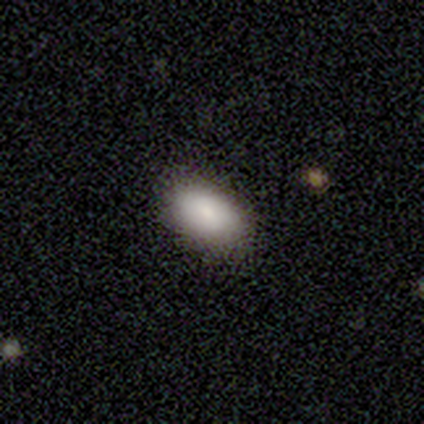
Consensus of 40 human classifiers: This is clearly a smooth galaxy (80%). How rounded: clearly in between (94%). Merging: clearly none (89%).